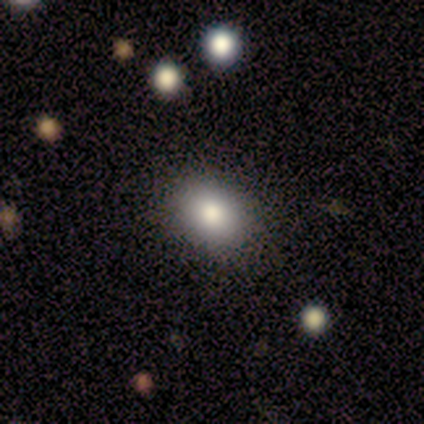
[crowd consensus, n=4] Smooth or featured? smooth (50%, tied with star or artifact)
How rounded? round (50%, tied with in between)
Merging? none (50%, tied with minor disturbance)